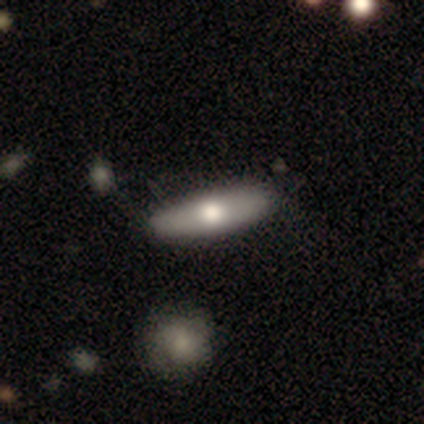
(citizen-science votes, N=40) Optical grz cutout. It shows a smooth galaxy with no disk features (57%) that is cigar-shaped (65%). Merging: none (68%).